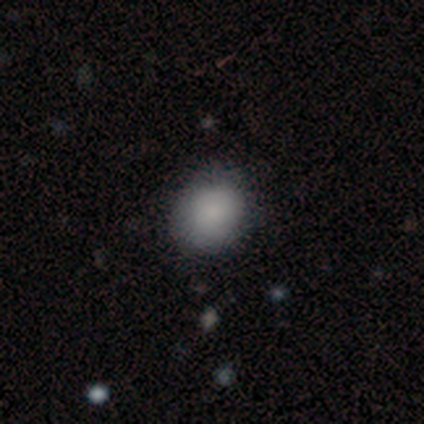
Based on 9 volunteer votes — smooth 89%, star or artifact 11%, featured or disk 0%. Down the decision tree: how rounded — round (75%); merging — none (100%).